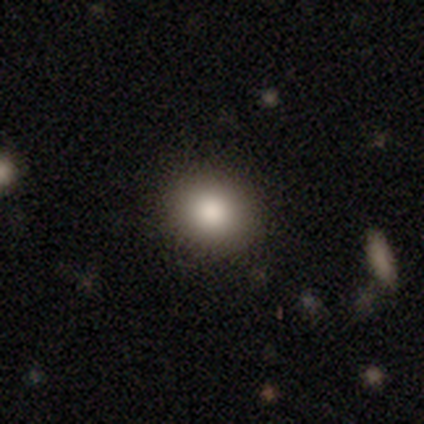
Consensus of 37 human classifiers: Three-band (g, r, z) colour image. It shows a smooth galaxy with no disk features (70%) that is round (81%). Merging: none (93%).